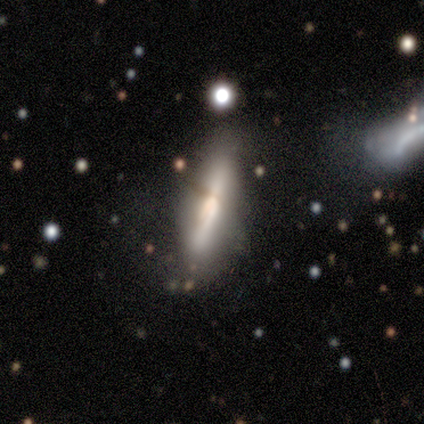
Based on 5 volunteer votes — Smooth or featured? featured or disk (60%)
Edge-on disk? yes (100%)
Edge-on bulge? boxy (33%, tied with none and rounded)
Merging? none (60%)